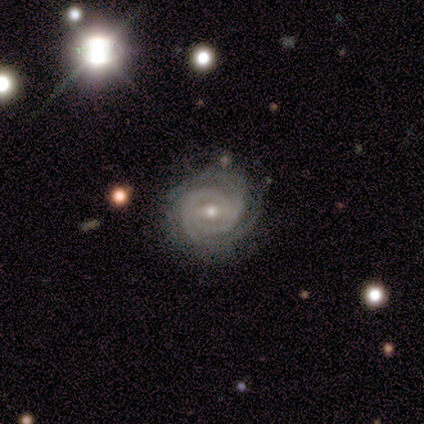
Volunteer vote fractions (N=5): Smooth or featured?
  - featured or disk: 80% *
  - star or artifact: 20%
  - smooth: 0%
Edge-on disk?
  - no: 100% *
  - yes: 0%
Bar?
  - strong: 50% * (tied)
  - weak: 50% * (tied)
  - no: 0%
Spiral arms?
  - yes: 100% *
  - no: 0%
Spiral winding?
  - tight: 75% *
  - medium: 25%
  - loose: 0%
Spiral arm count?
  - 2: 75% *
  - can't tell: 25%
  - 1: 0%
  - 3: 0%
  - 4: 0%
  - more than 4: 0%
Bulge size?
  - small: 100% *
  - dominant: 0%
  - large: 0%
  - moderate: 0%
  - none: 0%
Merging?
  - none: 75% *
  - minor disturbance: 25%
  - major disturbance: 0%
  - merger: 0%